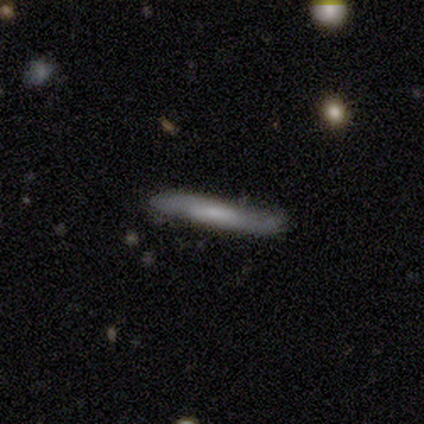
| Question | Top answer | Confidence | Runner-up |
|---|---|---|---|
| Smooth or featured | smooth | 60% | featured or disk (40%) |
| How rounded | cigar-shaped | 100% | — |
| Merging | none | 40% | tied: minor disturbance (40%) |